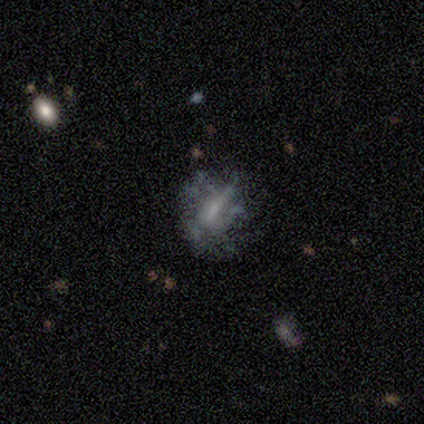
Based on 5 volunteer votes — smooth 40% (tied), star or artifact 40% (tied), featured or disk 20%. Down the decision tree: how rounded — round (100%); merging — minor disturbance (67%).